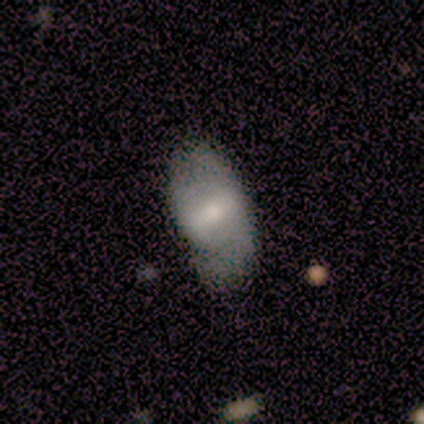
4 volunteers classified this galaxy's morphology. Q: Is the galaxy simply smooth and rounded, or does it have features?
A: smooth — 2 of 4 (50%, tied with featured or disk).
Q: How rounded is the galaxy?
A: in between — 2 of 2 (100%).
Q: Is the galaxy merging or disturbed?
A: none — 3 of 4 (75%).